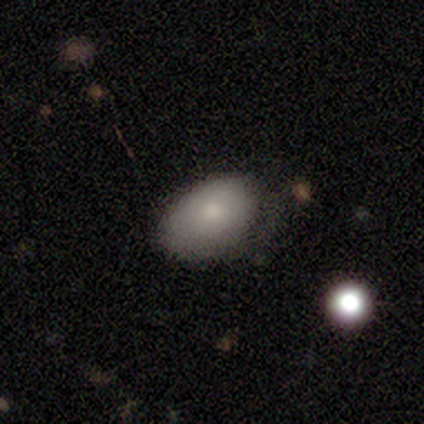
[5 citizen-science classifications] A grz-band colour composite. It shows a smooth galaxy with no disk features (80%) that is in between round and cigar-shaped (100%). Merging: minor disturbance (75%).